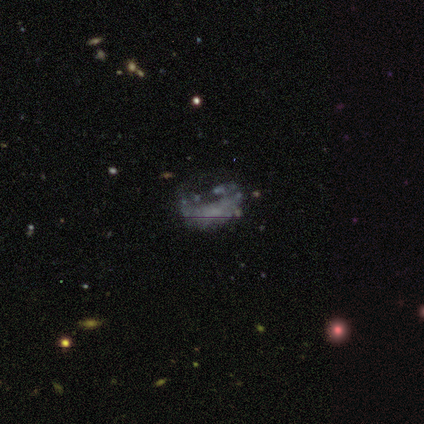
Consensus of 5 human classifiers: smooth_or_featured: smooth (p=0.40) [tied with: featured or disk p=0.40]
how_rounded: in between (p=1.00)
merging: none (p=0.50) [tied with: minor disturbance p=0.50]